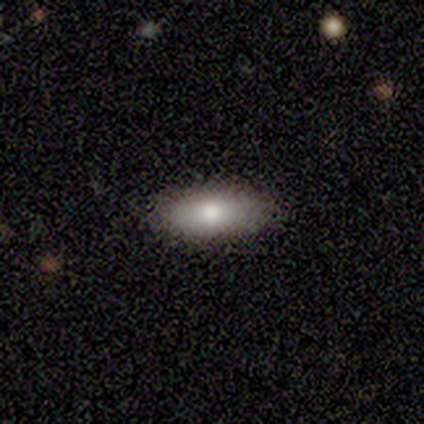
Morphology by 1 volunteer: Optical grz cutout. It shows a featured or disk galaxy (100%) with no bar (100%), no spiral arms (100%) and a large central bulge (100%). Merging: none (100%).